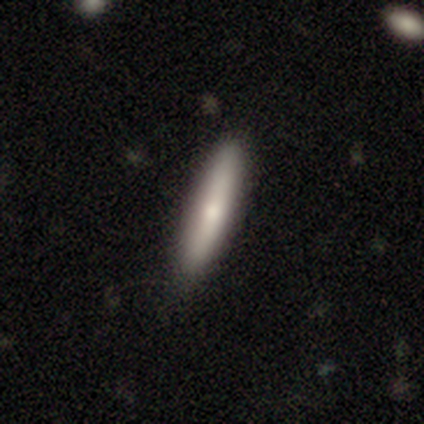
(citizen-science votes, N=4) smooth 75%, featured or disk 25%, star or artifact 0%. Down the decision tree: how rounded — cigar-shaped (100%); merging — none (75%).